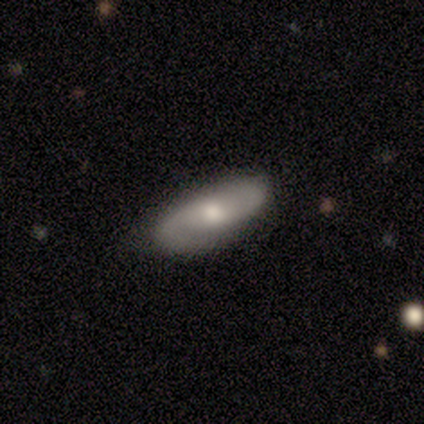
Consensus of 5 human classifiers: This is clearly a featured or disk galaxy (80%). It is clearly not viewed edge-on (100%). Bar: likely no (75%). Spiral arm pattern: clearly yes (100%). Spiral arm count: clearly 2 (100%). Spiral winding: likely loose (75%). Central bulge: likely moderate (75%). Merging: likely none (60%).